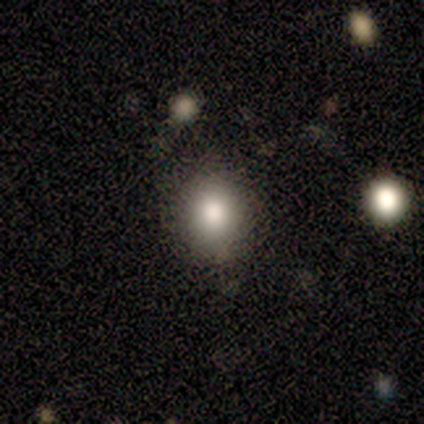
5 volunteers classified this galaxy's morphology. type=smooth (80%); roundness=round (75%); merging=none (75%).